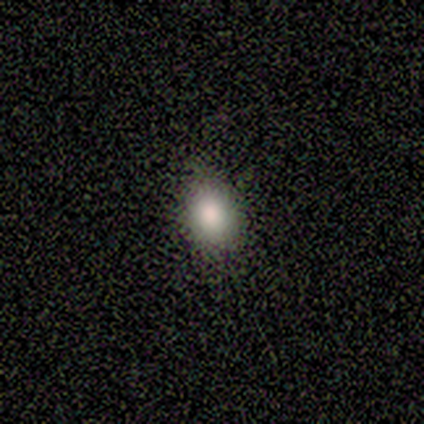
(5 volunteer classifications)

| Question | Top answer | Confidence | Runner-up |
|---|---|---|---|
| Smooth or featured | smooth | 60% | featured or disk (20%) |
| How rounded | in between | 67% | round (33%) |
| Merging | none | 100% | — |